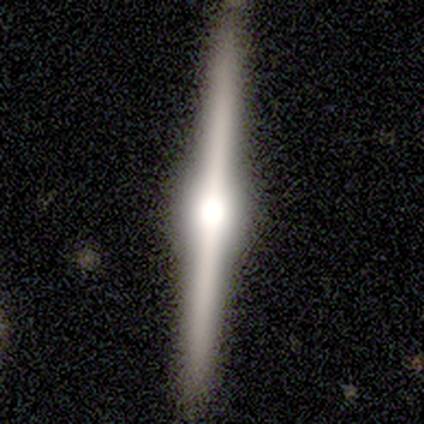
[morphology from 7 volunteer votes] smooth-or-featured: featured or disk: 100% | smooth: 0% | star or artifact: 0%
  disk-edge-on: yes: 100% | no: 0%
    edge-on-bulge: rounded: 86% | boxy: 14% | none: 0%
  merging: none: 100% | minor disturbance: 0% | major disturbance: 0% | merger: 0%